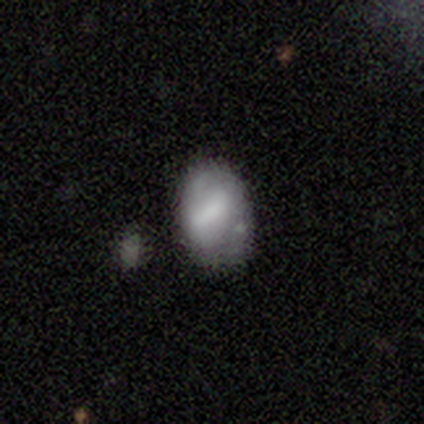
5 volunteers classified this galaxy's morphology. This appears to be a smooth galaxy with no disk features (60%) that is in between round and cigar-shaped (100%). Merging: none (50%).